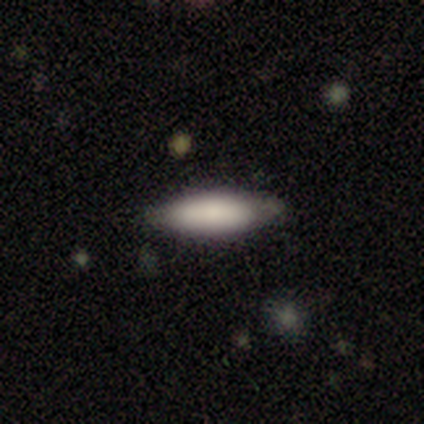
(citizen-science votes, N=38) This is clearly a smooth galaxy (87%). How rounded: possibly in between (55%). Merging: likely none (78%).